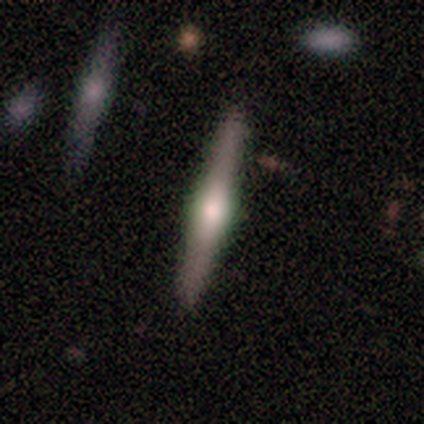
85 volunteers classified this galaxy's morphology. Smooth or featured: featured or disk — 80% (smooth — 15%)
Edge-on disk: yes — 99% (no — 1%)
Edge-on bulge: rounded — 87% (boxy — 13%)
Merging: none — 84% (minor disturbance — 14%)